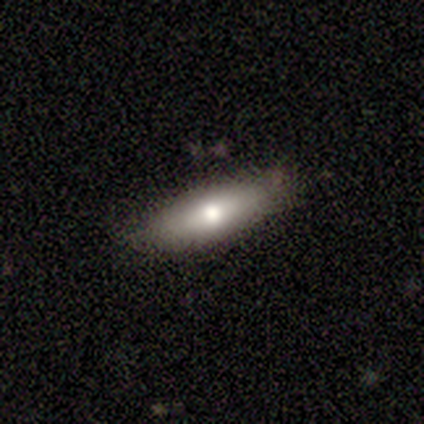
Smooth or featured? 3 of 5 (60%) said featured or disk. Edge-on disk? 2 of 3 (67%) said no. Bar? 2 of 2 (100%) said no. Spiral arms? 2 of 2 (100%) said no. Bulge size? 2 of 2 (100%) said moderate. Merging? 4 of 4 (100%) said none.